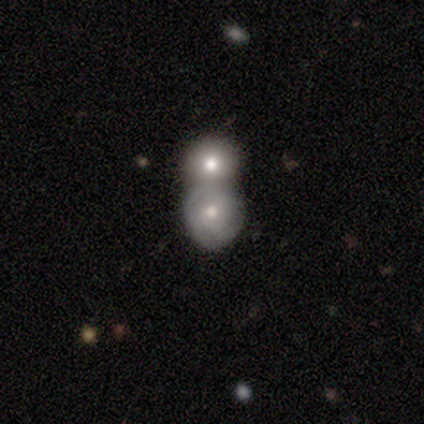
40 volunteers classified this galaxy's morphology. Overall: featured or disk (50%; smooth 42%). Edge-on disk: no (100%). Bar: no (80%). Spiral arms: no (65%; yes 35%). Bulge size: moderate (55%; small 30%). Merging: merger (81%).